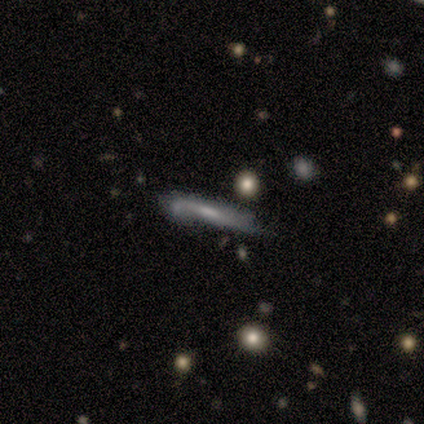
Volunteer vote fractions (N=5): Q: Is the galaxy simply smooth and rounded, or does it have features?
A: featured or disk — 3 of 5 (60%).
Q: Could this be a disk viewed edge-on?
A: yes — 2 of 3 (67%).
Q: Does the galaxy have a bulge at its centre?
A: none — 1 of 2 (50%, tied with rounded).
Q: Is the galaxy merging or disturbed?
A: none — 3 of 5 (60%).